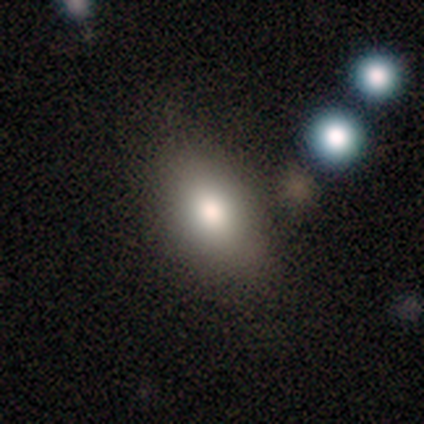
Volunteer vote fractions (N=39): A smooth galaxy with no disk features (69%) that is in between round and cigar-shaped (93%).

Vote fractions:
- Smooth or featured? smooth: 69% / featured or disk: 21% / star or artifact: 10%
- How rounded? in between: 93% / round: 7% / cigar-shaped: 0%
- Merging? none: 63% / minor disturbance: 20% / merger: 11% / major disturbance: 6%